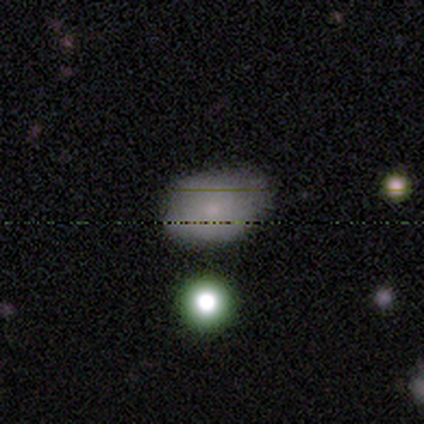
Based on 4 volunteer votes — Volunteers were most divided on "smooth or featured": smooth: 75%, featured or disk: 25%, star or artifact: 0%. More confident: how rounded — in between (100%); merging — none (75%).